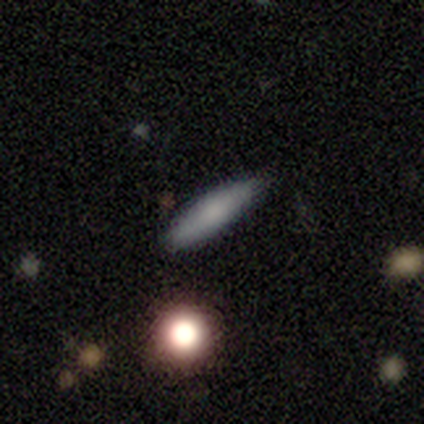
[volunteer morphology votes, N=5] Volunteers were most divided on "smooth or featured": featured or disk: 60%, smooth: 40%, star or artifact: 0%. More confident: edge-on bulge — rounded (100%); merging — none (80%); edge-on disk — yes (67%).